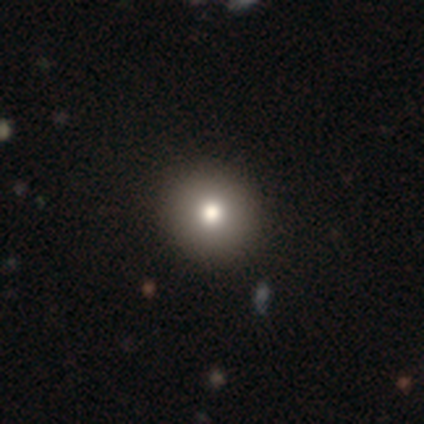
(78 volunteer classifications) Smooth or featured? smooth (77%)
How rounded? round (100%)
Merging? none (49%)